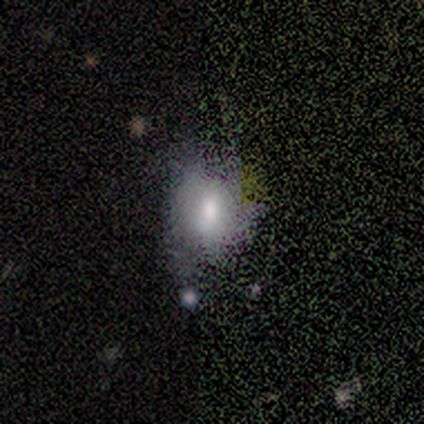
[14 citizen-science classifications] Overall: smooth (64%). How rounded: in between (56%; round 44%). Merging: none (64%; minor disturbance 36%).